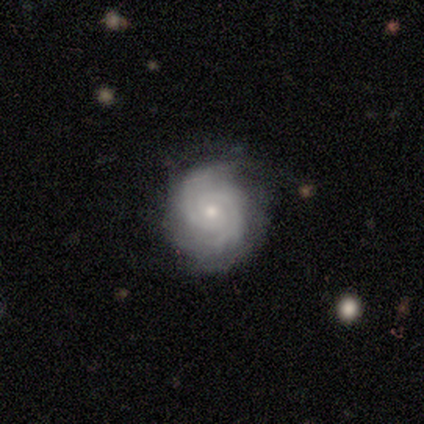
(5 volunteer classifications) Smooth or featured? 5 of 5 (100%) said featured or disk. Edge-on disk? 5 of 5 (100%) said no. Bar? 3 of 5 (60%) said no. Spiral arms? 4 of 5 (80%) said yes. Spiral winding? 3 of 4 (75%) said tight. Spiral arm count? 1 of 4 (25%, tied with 3, 4 and can't tell) said 2. Bulge size? 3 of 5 (60%) said small. Merging? 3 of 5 (60%) said none.